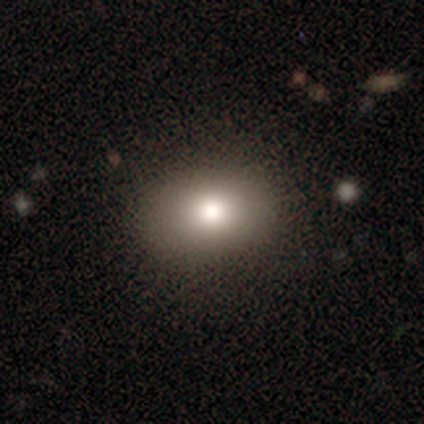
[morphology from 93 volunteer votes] smooth-or-featured: smooth: 86% | star or artifact: 8% | featured or disk: 6%
  how-rounded: in between: 69% | round: 31% | cigar-shaped: 0%
  merging: none: 88% | minor disturbance: 9% | major disturbance: 1% | merger: 1%